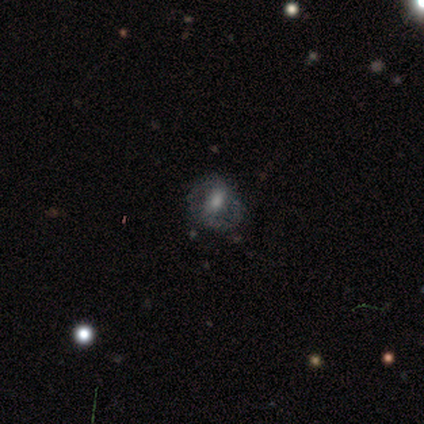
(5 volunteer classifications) Smooth or featured? featured or disk (60%)
Edge-on disk? no (100%)
Bar? strong (33%, tied with weak and no)
Spiral arms? yes (67%)
Spiral winding? medium (50%, tied with loose)
Spiral arm count? 2 (100%)
Bulge size? large (67%)
Merging? none (75%)